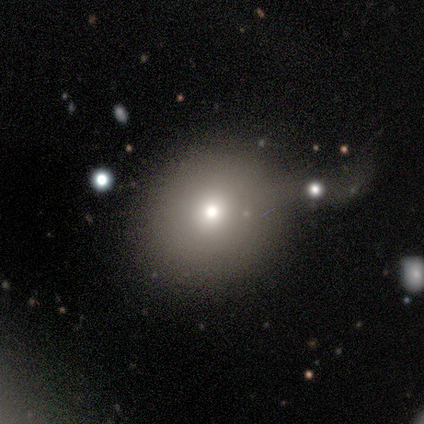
Smooth or featured? smooth (60%)
How rounded? round (100%)
Merging? none (50%)